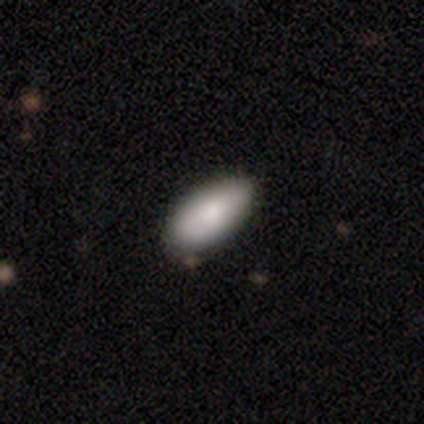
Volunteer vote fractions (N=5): Q: Smooth or featured?
A: smooth (80%); runner-up: featured or disk (20%)
Q: How rounded?
A: in between (100%)
Q: Merging?
A: none (60%); runner-up: minor disturbance (40%)